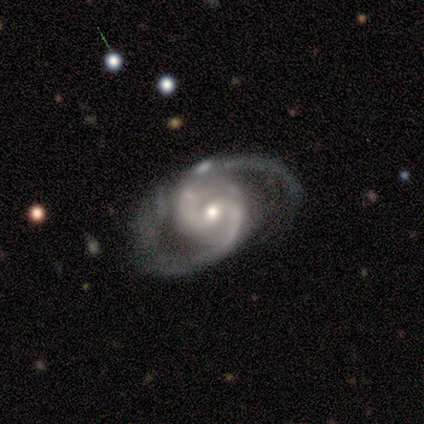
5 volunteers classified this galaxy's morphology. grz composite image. It shows a featured or disk galaxy (100%) with a weak bar (60%), 2 (100%) medium (80%) spiral arms (100%) and a small central bulge (60%). Merging: minor disturbance (40%, tied with major disturbance).